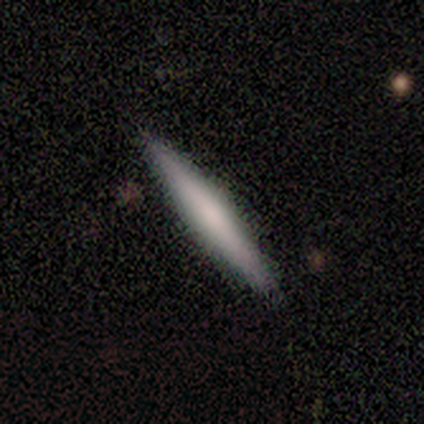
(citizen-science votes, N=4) A featured or disk galaxy (100%) viewed edge-on (100%) with a rounded central bulge (50%). Merging: minor disturbance (75%).